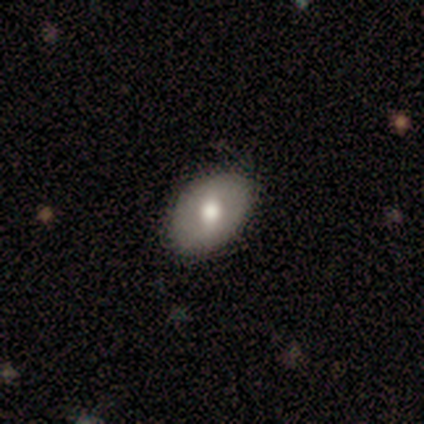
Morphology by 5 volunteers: Overall: featured or disk (80%). Edge-on disk: yes (50%, tied with no). Edge-on bulge: rounded (100%). Merging: minor disturbance (60%; none 40%).